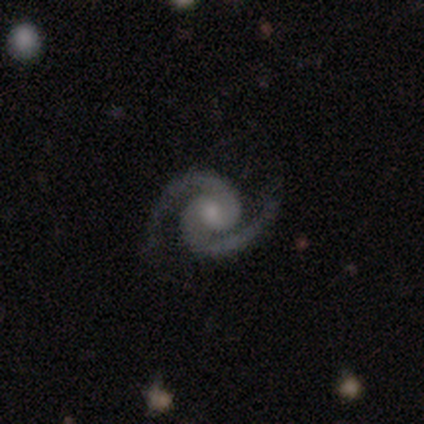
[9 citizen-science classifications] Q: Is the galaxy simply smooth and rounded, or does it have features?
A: featured or disk — 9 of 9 (100%).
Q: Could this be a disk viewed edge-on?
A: no — 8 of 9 (89%).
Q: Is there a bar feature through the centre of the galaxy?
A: weak — 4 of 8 (50%, tied with no).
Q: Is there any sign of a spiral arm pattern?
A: yes — 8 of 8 (100%).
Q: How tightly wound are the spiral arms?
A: medium — 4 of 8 (50%).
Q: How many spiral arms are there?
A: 2 — 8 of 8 (100%).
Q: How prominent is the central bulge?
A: moderate — 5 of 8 (62%).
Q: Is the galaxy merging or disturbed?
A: none — 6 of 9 (67%).